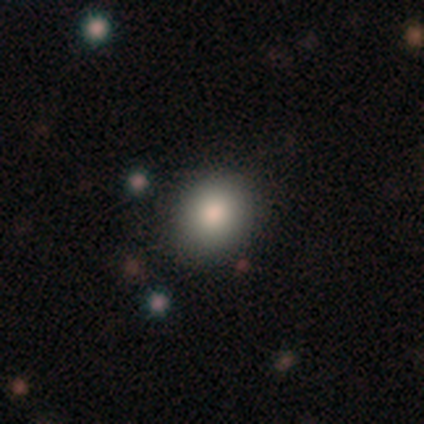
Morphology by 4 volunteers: smooth_or_featured: smooth (p=1.00)
how_rounded: round (p=0.75) [alt: in between p=0.25]
merging: none (p=0.75) [alt: minor disturbance p=0.25]